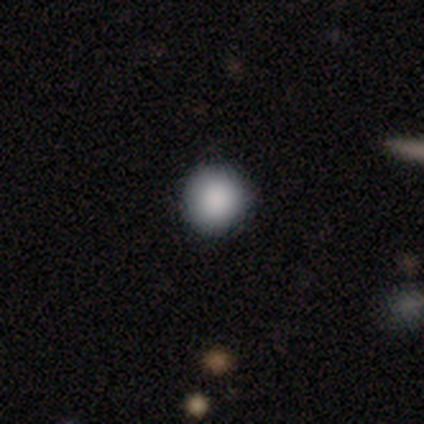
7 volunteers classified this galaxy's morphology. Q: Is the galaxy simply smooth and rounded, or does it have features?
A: smooth — 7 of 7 (100%).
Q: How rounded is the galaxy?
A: round — 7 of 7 (100%).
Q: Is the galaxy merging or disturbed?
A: none — 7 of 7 (100%).